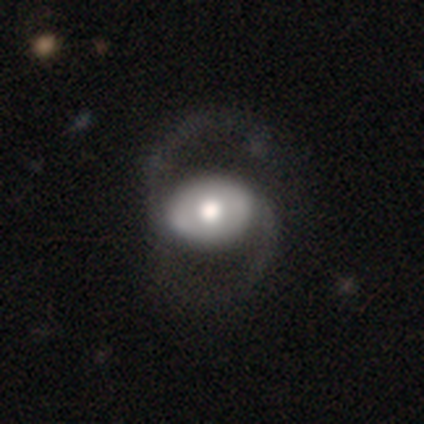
Morphology: type=featured or disk (77%); edge-on=no (97%); bar=no (72%); spiral arms=yes (83%); winding=loose (67%); arm count=2 (100%); bulge=moderate (62%); merging=none (44%).